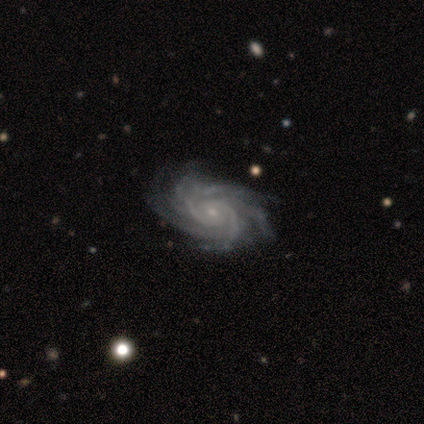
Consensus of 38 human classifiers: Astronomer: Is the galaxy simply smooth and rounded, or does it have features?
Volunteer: featured or disk — 95%.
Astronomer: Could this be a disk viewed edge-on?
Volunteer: no — 94%.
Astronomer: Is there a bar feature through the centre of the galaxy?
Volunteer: no — 65%.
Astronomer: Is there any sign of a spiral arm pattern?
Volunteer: yes — 100%.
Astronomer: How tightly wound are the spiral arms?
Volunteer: tight — 56% (runner-up: medium, 35%).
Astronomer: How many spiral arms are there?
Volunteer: more than 4 — 50%.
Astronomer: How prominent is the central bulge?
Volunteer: small — 88%.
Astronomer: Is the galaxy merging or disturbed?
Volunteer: none — 51%.